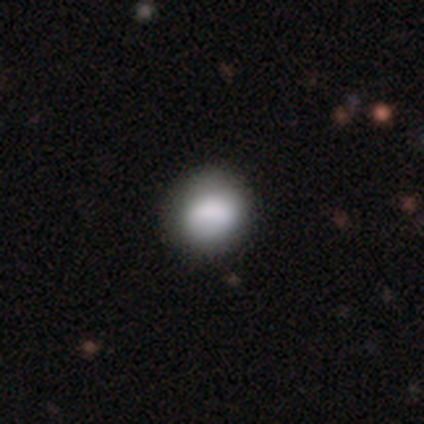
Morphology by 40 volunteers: type=smooth (75%); roundness=round (77%); merging=none (57%).